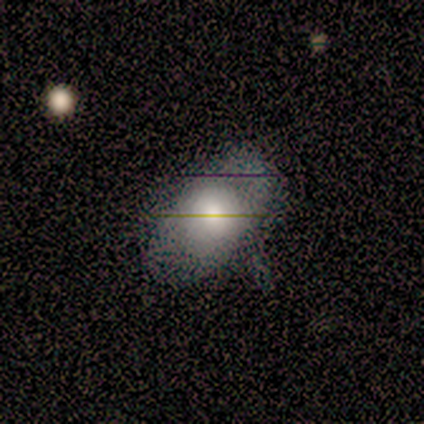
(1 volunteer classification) featured or disk 100%, smooth 0%, star or artifact 0%. Down the decision tree: edge-on disk — no (100%); bar — no (100%); spiral arms — no (100%); bulge size — moderate (100%); merging — none (100%).